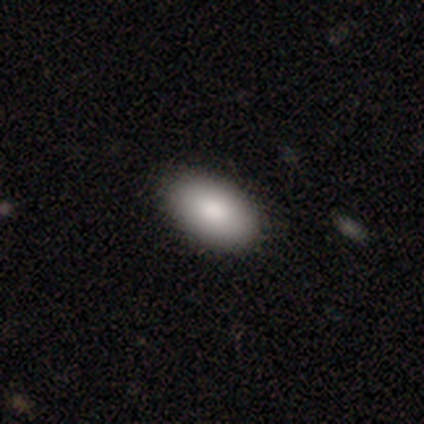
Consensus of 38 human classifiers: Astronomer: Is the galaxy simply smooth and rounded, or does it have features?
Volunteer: smooth — 87%.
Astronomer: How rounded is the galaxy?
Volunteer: in between — 97%.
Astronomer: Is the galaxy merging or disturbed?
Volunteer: none — 58%.